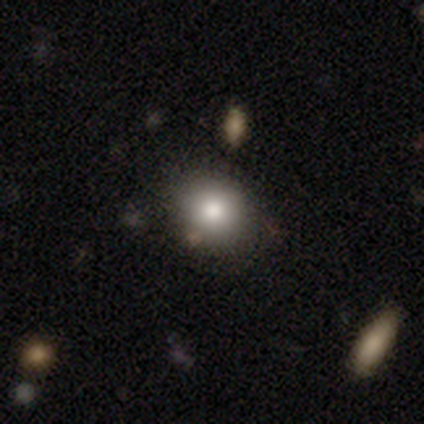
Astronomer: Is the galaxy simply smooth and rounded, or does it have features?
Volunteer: smooth — 100%.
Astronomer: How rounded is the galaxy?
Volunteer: round — 80%.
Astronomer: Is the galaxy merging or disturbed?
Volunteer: none — 80%.